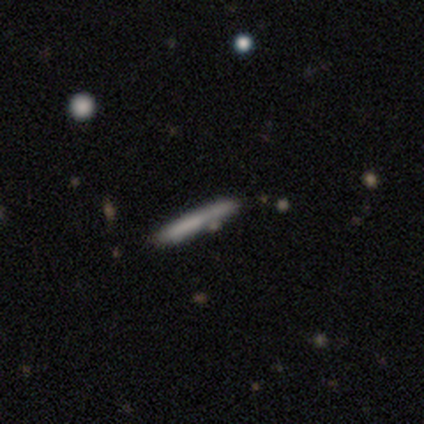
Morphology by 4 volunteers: Volunteers were most divided on "smooth or featured" (2-way tie): smooth: 50%, featured or disk: 50%, star or artifact: 0%. More confident: how rounded — cigar-shaped (100%); merging — none (75%).